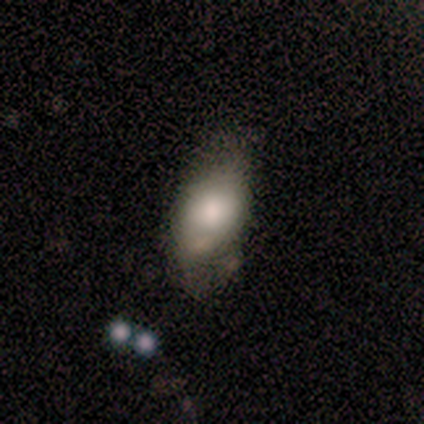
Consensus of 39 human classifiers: This is likely a smooth galaxy (77%). How rounded: clearly in between (90%). Merging: marginally minor disturbance (41%).